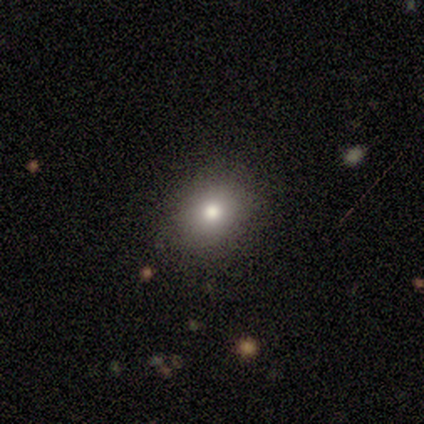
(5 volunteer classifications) This appears to be a smooth galaxy with no disk features (100%) that is round (100%). Merging: none (100%).